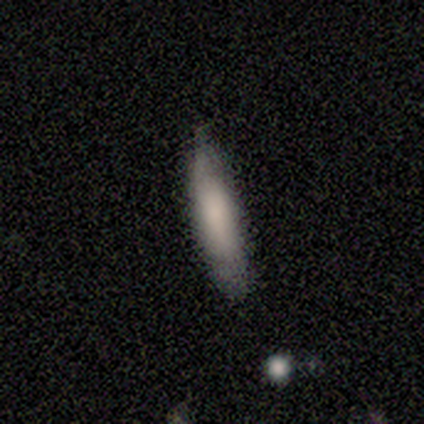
smooth_or_featured: smooth (p=0.80) [alt: star or artifact p=0.20]
how_rounded: in between (p=0.50) [tied with: cigar-shaped p=0.50]
merging: none (p=1.00)